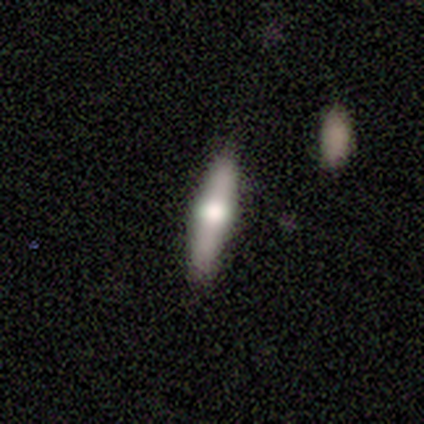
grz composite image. It shows a featured or disk galaxy (60%) viewed edge-on (100%) with a rounded central bulge (100%). Merging: none (60%).